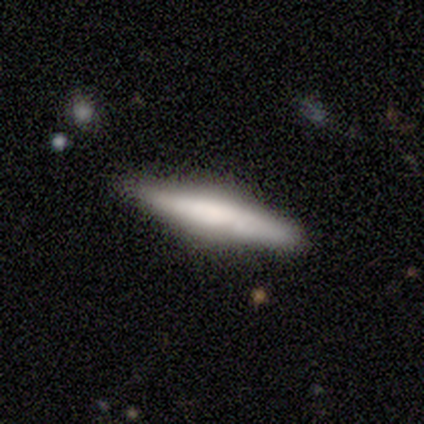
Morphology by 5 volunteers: type=smooth (60%); roundness=cigar-shaped (100%); merging=none (100%).